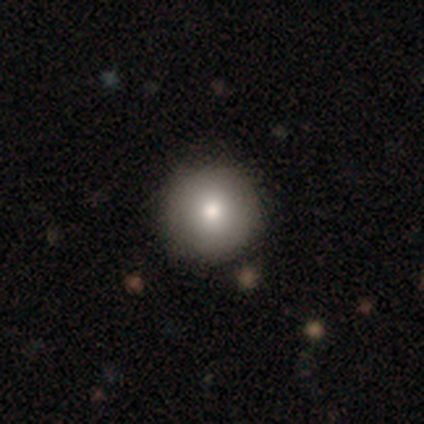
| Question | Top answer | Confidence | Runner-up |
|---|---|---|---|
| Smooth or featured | smooth | 100% | — |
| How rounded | round | 75% | in between (25%) |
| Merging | none | 100% | — |